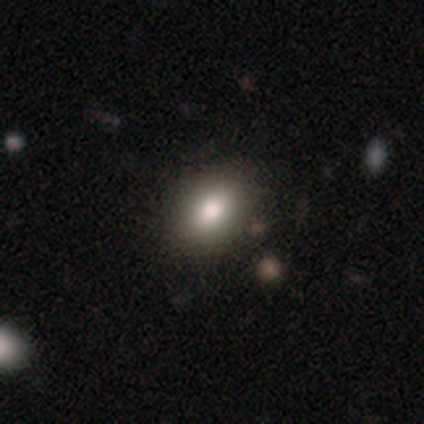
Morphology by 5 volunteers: Smooth or featured: smooth — 60% (featured or disk — 20%)
How rounded: in between — 100%
Merging: none — 100%